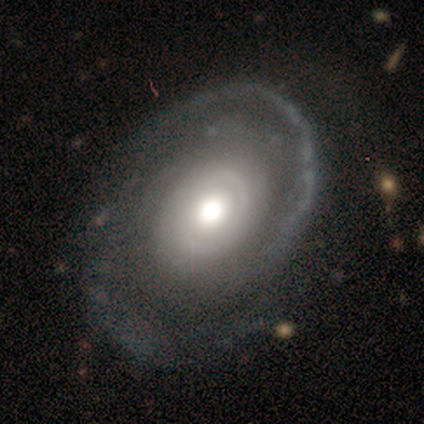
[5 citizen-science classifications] Q: Smooth or featured?
A: featured or disk (80%); runner-up: star or artifact (20%)
Q: Edge-on disk?
A: no (100%)
Q: Bar?
A: no (100%)
Q: Spiral arms?
A: yes (100%)
Q: Spiral winding?
A: tight (75%); runner-up: loose (25%)
Q: Spiral arm count?
A: 2 (75%); runner-up: can't tell (25%)
Q: Bulge size?
A: moderate (75%); runner-up: large (25%)
Q: Merging?
A: none (100%)